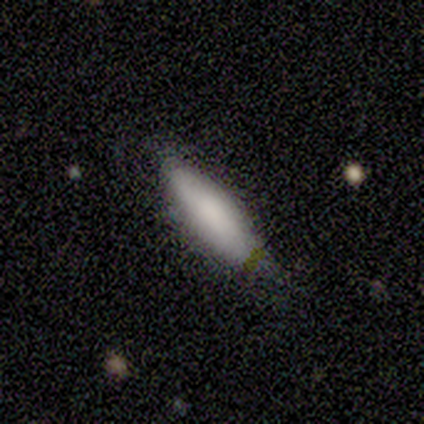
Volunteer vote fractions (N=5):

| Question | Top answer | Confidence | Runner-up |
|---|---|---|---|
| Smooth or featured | smooth | 100% | — |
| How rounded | in between | 60% | cigar-shaped (40%) |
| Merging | none | 60% | minor disturbance (40%) |